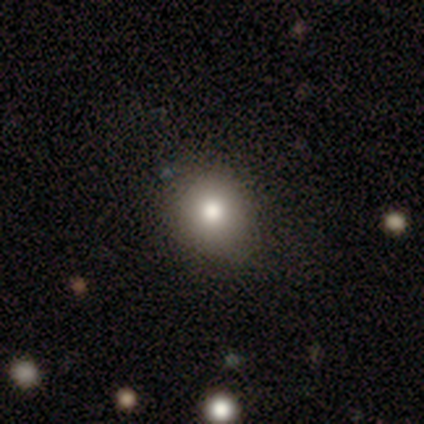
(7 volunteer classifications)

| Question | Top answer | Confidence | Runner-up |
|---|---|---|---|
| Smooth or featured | smooth | 86% | star or artifact (14%) |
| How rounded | round | 67% | in between (33%) |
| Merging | none | 100% | — |